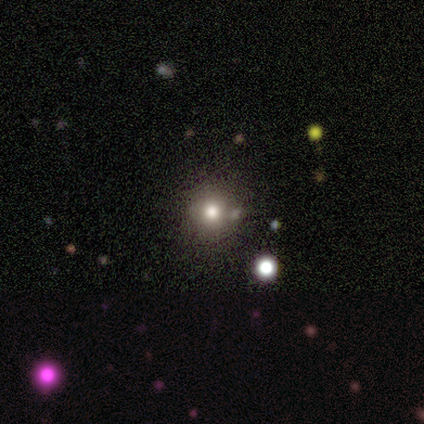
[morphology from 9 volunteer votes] Smooth or featured? smooth (78%)
How rounded? round (86%)
Merging? none (88%)